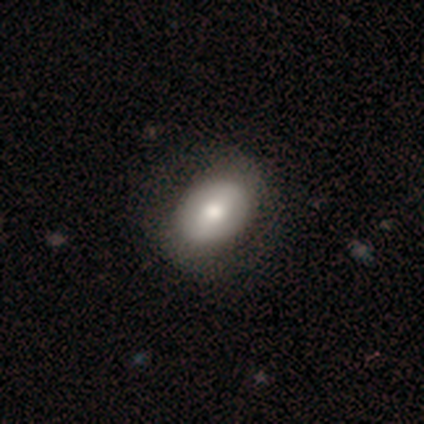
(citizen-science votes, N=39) Smooth or featured? smooth (54%)
How rounded? in between (67%)
Merging? none (63%)